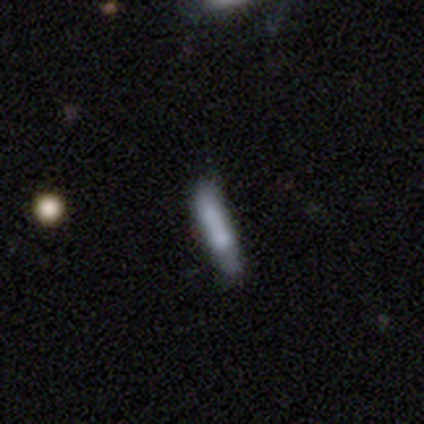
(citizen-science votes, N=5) Volunteers were most divided on "how rounded": cigar-shaped: 60%, in between: 40%, round: 0%. More confident: smooth or featured — smooth (100%); merging — none (80%).